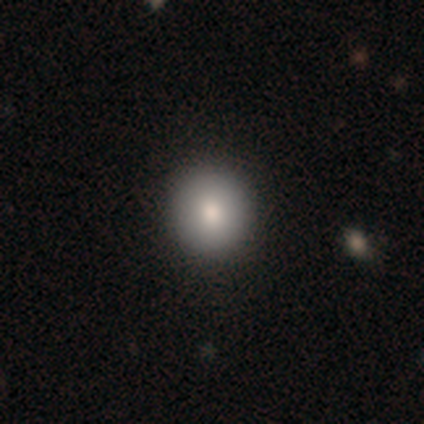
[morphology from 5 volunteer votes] type=smooth (80%); roundness=round (75%); merging=none (100%).